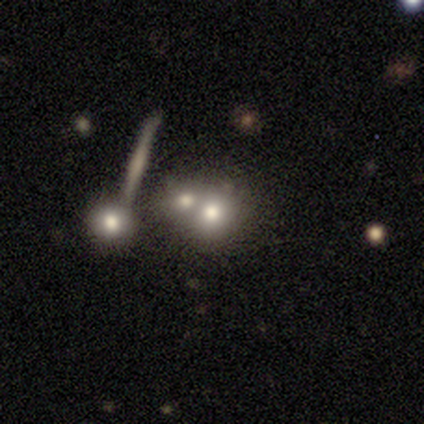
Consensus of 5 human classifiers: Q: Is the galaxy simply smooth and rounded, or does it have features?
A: featured or disk — 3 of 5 (60%).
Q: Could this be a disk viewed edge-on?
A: no — 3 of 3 (100%).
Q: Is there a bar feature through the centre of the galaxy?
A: no — 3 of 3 (100%).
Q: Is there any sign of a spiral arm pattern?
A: no — 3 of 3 (100%).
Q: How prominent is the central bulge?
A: large — 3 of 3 (100%).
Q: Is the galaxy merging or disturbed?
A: merger — 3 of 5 (60%).